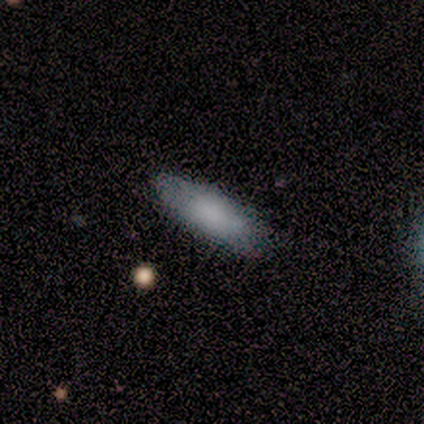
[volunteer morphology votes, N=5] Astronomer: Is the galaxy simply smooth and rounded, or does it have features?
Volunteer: smooth — 80%.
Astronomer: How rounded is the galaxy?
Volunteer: in between — 75%.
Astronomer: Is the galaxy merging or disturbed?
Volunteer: none — 60%.